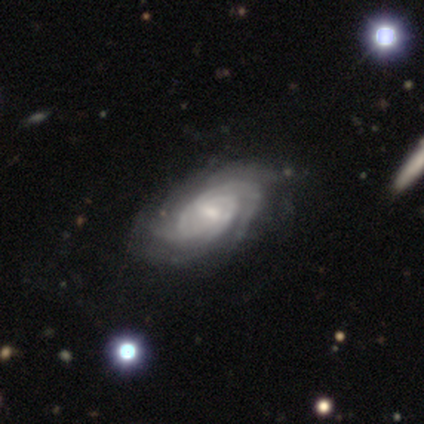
A featured or disk galaxy (88%) with a weak bar (58%), tight (66%) spiral arms (97%) and a small central bulge (39%).

Vote fractions:
- Smooth or featured? featured or disk: 88% / star or artifact: 8% / smooth: 5%
- Edge-on disk? no: 94% / yes: 6%
- Bar? weak: 58% / no: 24% / strong: 18%
- Spiral arms? yes: 97% / no: 3%
- Spiral winding? tight: 66% / medium: 25% / loose: 9%
- Spiral arm count? can't tell: 34% / 3: 28% / 2: 19% / 4: 9% / more than 4: 9% / 1: 0%
- Bulge size? small: 39% / moderate: 36% / large: 12% / none: 12% / dominant: 0%
- Merging? none: 49% / minor disturbance: 16% / merger: 5% / major disturbance: 3%